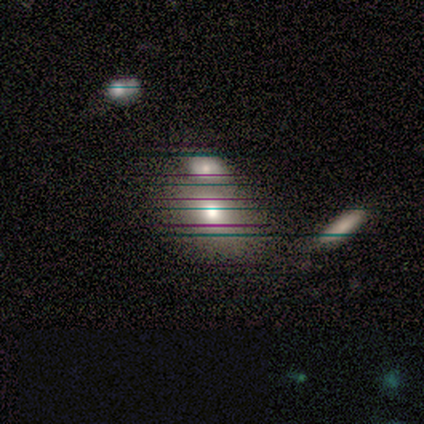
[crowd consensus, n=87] A smooth galaxy with no disk features (52%) that is in between round and cigar-shaped (71%).

Vote fractions:
- Smooth or featured? smooth: 52% / star or artifact: 28% / featured or disk: 21%
- How rounded? in between: 71% / round: 24% / cigar-shaped: 4%
- Merging? none: 43% / merger: 40% / minor disturbance: 10% / major disturbance: 8%